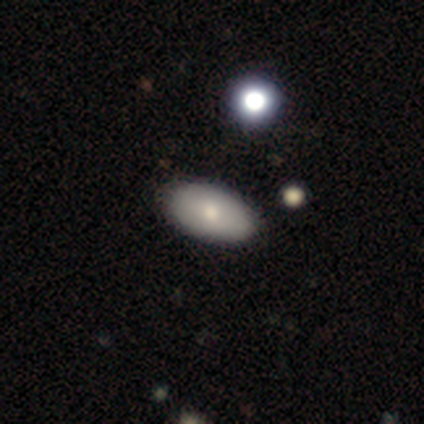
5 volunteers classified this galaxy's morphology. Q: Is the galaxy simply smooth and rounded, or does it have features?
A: smooth — 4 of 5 (80%).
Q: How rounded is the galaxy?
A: in between — 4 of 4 (100%).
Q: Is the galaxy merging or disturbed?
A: none — 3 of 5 (60%).